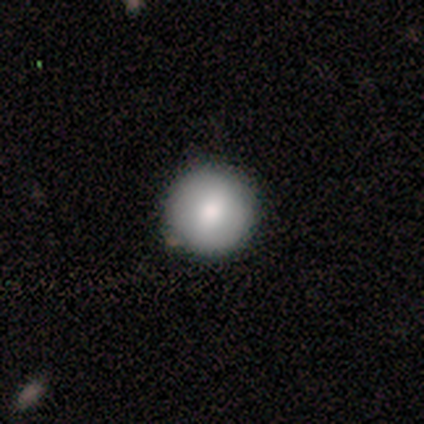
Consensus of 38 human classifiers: Smooth or featured?
  - smooth: 92% *
  - featured or disk: 5%
  - star or artifact: 3%
How rounded?
  - round: 100% *
  - in between: 0%
  - cigar-shaped: 0%
Merging?
  - none: 81% *
  - minor disturbance: 19%
  - major disturbance: 0%
  - merger: 0%